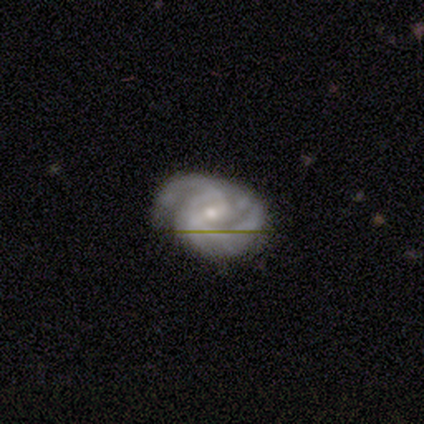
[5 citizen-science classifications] smooth_or_featured: featured or disk (p=1.00)
disk_edge_on: no (p=1.00)
bar: weak (p=0.60) [alt: strong p=0.20]
has_spiral_arms: yes (p=1.00)
spiral_winding: loose (p=0.60) [alt: tight p=0.40]
spiral_arm_count: 2 (p=0.60) [alt: 1 p=0.20]
bulge_size: moderate (p=0.60) [alt: small p=0.40]
merging: none (p=0.60) [alt: minor disturbance p=0.20]